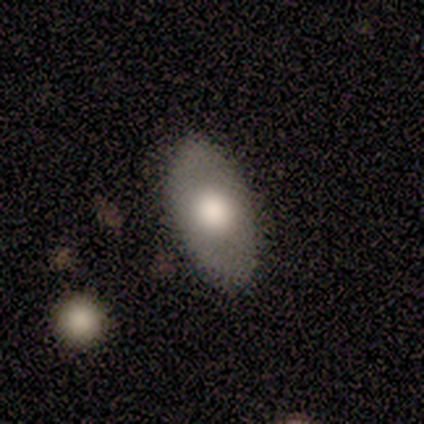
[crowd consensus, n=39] Smooth or featured? smooth (56%)
How rounded? in between (95%)
Merging? none (66%)